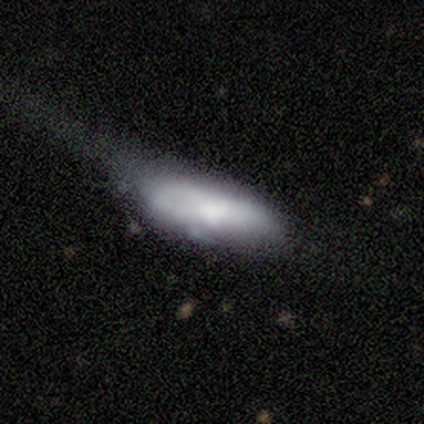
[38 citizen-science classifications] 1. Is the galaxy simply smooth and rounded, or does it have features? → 55% smooth, 45% featured or disk, 0% star or artifact.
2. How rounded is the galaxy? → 57% in between, 43% cigar-shaped, 0% round.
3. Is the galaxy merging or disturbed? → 63% major disturbance, 21% none, 16% minor disturbance, 0% merger.